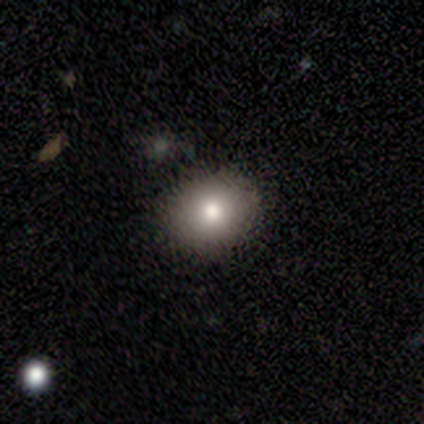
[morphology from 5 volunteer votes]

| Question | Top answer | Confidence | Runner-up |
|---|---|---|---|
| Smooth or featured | smooth | 80% | star or artifact (20%) |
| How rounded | round | 75% | in between (25%) |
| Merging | none | 100% | — |